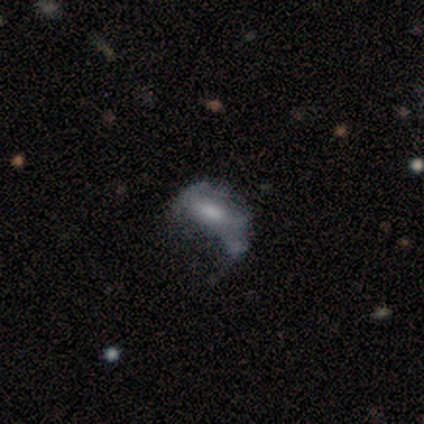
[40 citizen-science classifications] smooth-or-featured: featured or disk: 48% | smooth: 38% | star or artifact: 15%
  disk-edge-on: no: 95% | yes: 5%
    bar: no: 61% | weak: 33% | strong: 6%
    has-spiral-arms: no: 83% | yes: 17%
    bulge-size: small: 33% | moderate: 28% | none: 28% | large: 11% | dominant: 0%
  merging: major disturbance: 62% | none: 18% | minor disturbance: 18% | merger: 3%